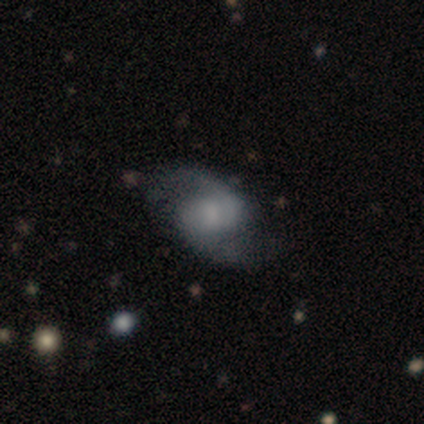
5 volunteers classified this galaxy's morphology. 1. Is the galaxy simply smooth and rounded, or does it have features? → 100% featured or disk, 0% smooth, 0% star or artifact.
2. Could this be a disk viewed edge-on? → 100% no, 0% yes.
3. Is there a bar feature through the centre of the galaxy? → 60% no, 40% weak, 0% strong.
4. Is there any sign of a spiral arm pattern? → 80% yes, 20% no.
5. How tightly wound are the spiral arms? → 100% loose, 0% tight, 0% medium.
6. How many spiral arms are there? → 100% 2, 0% 1, 0% 3, 0% 4, 0% more than 4, 0% can't tell.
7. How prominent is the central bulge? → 60% large, 20% small, 20% none, 0% dominant, 0% moderate.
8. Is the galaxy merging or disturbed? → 60% none, 20% minor disturbance, 20% major disturbance, 0% merger.